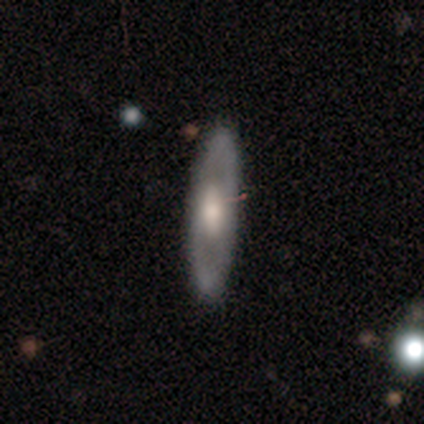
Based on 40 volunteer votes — Volunteers were most divided on "spiral arms" (2-way tie): yes: 50%, no: 50%; "bulge size" (2-way tie): large: 46%, moderate: 46%, small: 8%, dominant: 0%, none: 0%. More confident: spiral arm count — 2 (92%); merging — none (90%); edge-on disk — no (86%); smooth or featured — featured or disk (70%); bar — no (62%); spiral winding — medium (50%).